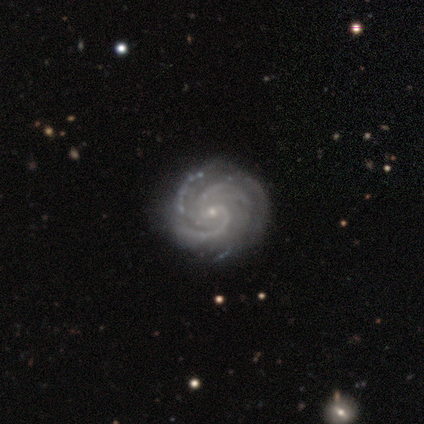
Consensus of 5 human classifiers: This is clearly a featured or disk galaxy (100%). It is clearly not viewed edge-on (100%). Bar: likely weak (60%). Spiral arm pattern: clearly yes (100%). Spiral arm count: likely 3 (60%). Spiral winding: clearly tight (80%). Central bulge: clearly small (100%). Merging: clearly none (100%).